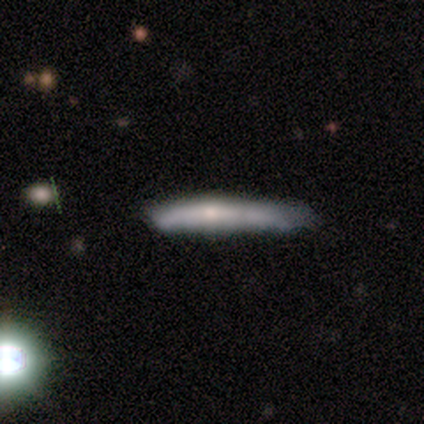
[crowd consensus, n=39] Volunteers were most divided on "merging": none: 44%, minor disturbance: 39%, major disturbance: 11%, merger: 6%. More confident: how rounded — cigar-shaped (95%); smooth or featured — smooth (56%).